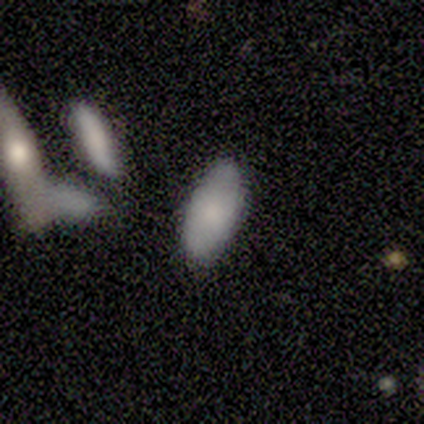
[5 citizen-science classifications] Smooth or featured? 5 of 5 (100%) said smooth. How rounded? 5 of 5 (100%) said in between. Merging? 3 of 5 (60%) said none.